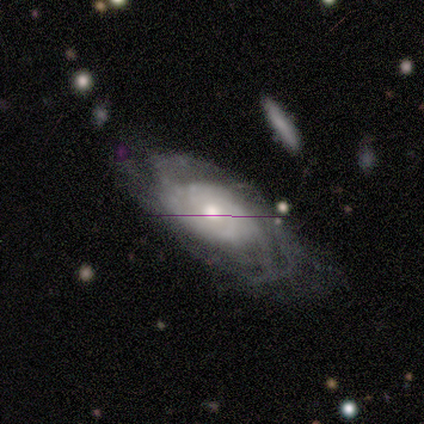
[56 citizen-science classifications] Smooth or featured?
  - featured or disk: 86% *
  - smooth: 12%
  - star or artifact: 2%
Edge-on disk?
  - no: 90% *
  - yes: 10%
Bar?
  - no: 81% *
  - weak: 12%
  - strong: 7%
Spiral arms?
  - yes: 91% *
  - no: 9%
Spiral winding?
  - tight: 59% *
  - medium: 33%
  - loose: 8%
Spiral arm count?
  - can't tell: 62% *
  - 4: 13%
  - 2: 10%
  - 3: 8%
  - more than 4: 8%
  - 1: 0%
Bulge size?
  - moderate: 70% *
  - small: 16%
  - large: 14%
  - dominant: 0%
  - none: 0%
Merging?
  - none: 60% *
  - minor disturbance: 27%
  - major disturbance: 13%
  - merger: 0%